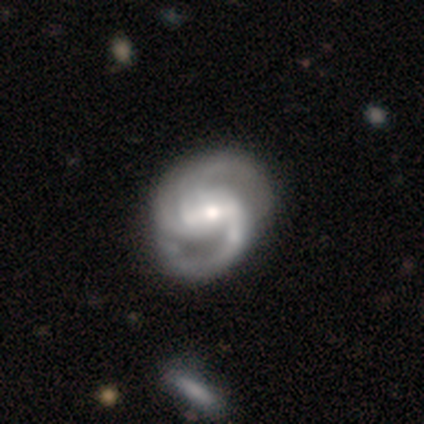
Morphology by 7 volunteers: Overall: featured or disk (100%). Edge-on disk: no (86%). Bar: weak (50%; strong 33%). Spiral arms: yes (100%). Spiral arm count: 2 (83%). Spiral winding: medium (50%; tight 33%). Bulge size: small (83%). Merging: none (100%).